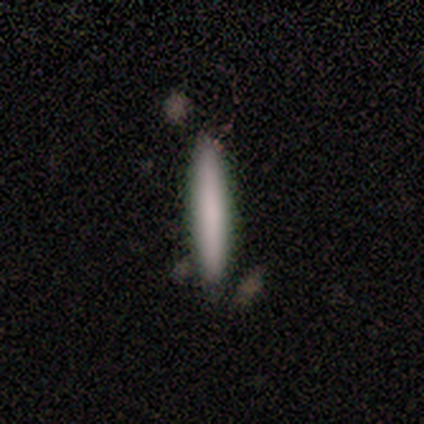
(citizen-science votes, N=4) Overall: smooth (100%). How rounded: cigar-shaped (100%). Merging: none (100%).